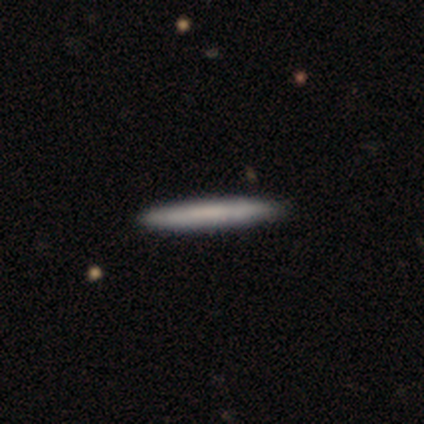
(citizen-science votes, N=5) smooth-or-featured: smooth: 80% | featured or disk: 20% | star or artifact: 0%
  how-rounded: cigar-shaped: 100% | round: 0% | in between: 0%
  merging: none: 80% | minor disturbance: 20% | major disturbance: 0% | merger: 0%